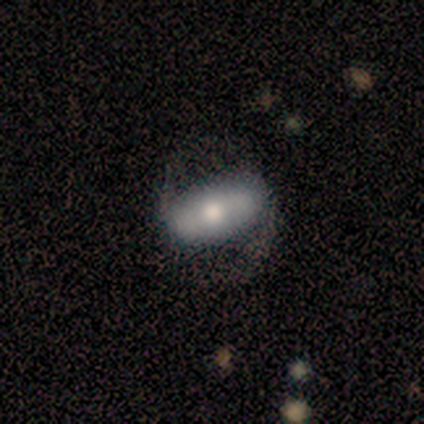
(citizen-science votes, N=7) Overall: featured or disk (86%). Edge-on disk: no (67%; yes 33%). Bar: strong (75%). Spiral arms: yes (100%). Spiral arm count: 2 (100%). Spiral winding: loose (75%). Bulge size: moderate (75%). Merging: none (71%).